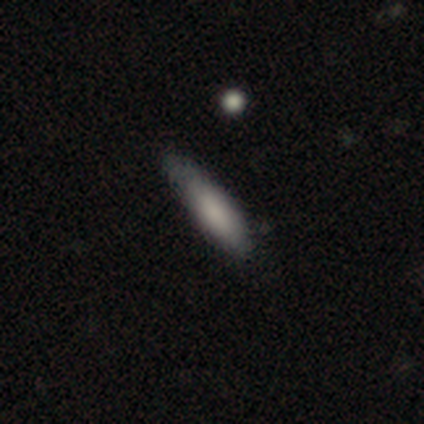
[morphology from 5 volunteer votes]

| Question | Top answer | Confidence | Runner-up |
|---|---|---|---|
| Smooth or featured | smooth | 80% | featured or disk (20%) |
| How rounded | cigar-shaped | 75% | in between (25%) |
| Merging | none | 100% | — |